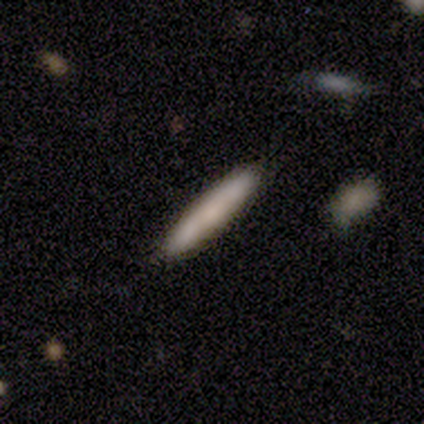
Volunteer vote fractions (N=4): smooth-or-featured: smooth: 100% | featured or disk: 0% | star or artifact: 0%
  how-rounded: cigar-shaped: 100% | round: 0% | in between: 0%
  merging: none: 75% | merger: 25% | minor disturbance: 0% | major disturbance: 0%